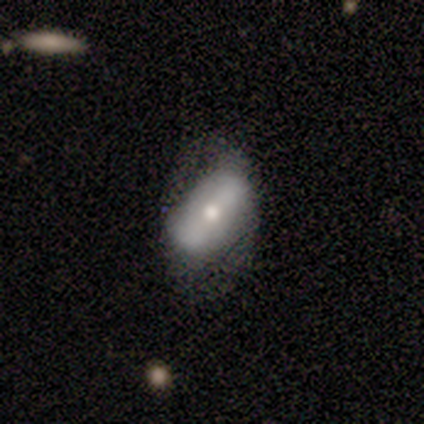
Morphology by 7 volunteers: smooth 43% (tied), featured or disk 43% (tied), star or artifact 14%. Down the decision tree: how rounded — in between (100%); merging — minor disturbance (50%).